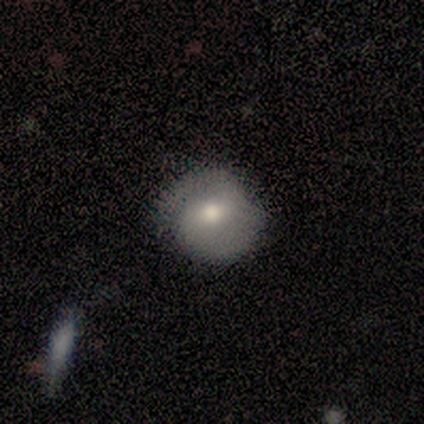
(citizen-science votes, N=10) Smooth or featured: smooth — 60% (featured or disk — 40%)
How rounded: round — 50% (tied with in between — 50%)
Merging: none — 50% (major disturbance — 30%)